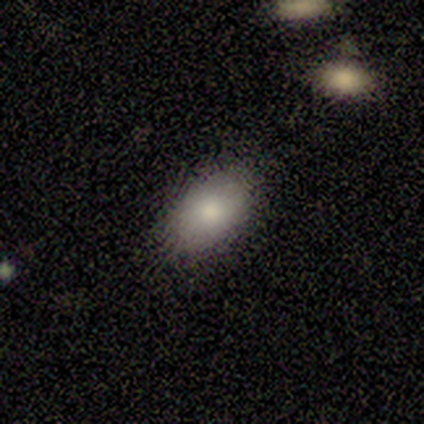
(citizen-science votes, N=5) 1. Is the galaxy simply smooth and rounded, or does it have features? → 80% smooth, 20% featured or disk, 0% star or artifact.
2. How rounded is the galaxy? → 100% in between, 0% round, 0% cigar-shaped.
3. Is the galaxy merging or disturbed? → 100% none, 0% minor disturbance, 0% major disturbance, 0% merger.